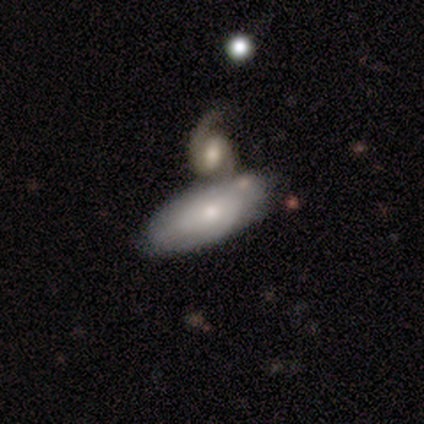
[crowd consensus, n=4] featured or disk 75%, smooth 25%, star or artifact 0%. Down the decision tree: edge-on disk — no (100%); bar — no (100%); spiral arms — yes (100%); spiral arm count — can't tell (67%); spiral winding — tight (67%); bulge size — small (67%); merging — merger (50%).